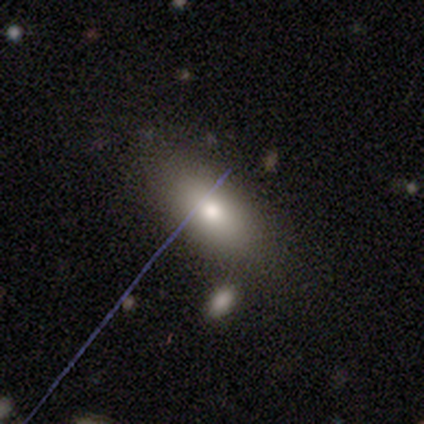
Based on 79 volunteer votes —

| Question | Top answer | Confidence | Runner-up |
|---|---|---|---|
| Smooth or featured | smooth | 78% | star or artifact (11%) |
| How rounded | in between | 92% | round (6%) |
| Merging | none | 37% | merger (11%) |